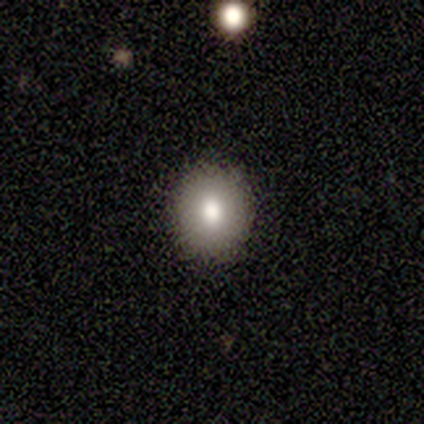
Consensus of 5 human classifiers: Volunteers were most divided on "smooth or featured": smooth: 60%, featured or disk: 40%, star or artifact: 0%. More confident: how rounded — round (100%); merging — none (100%).